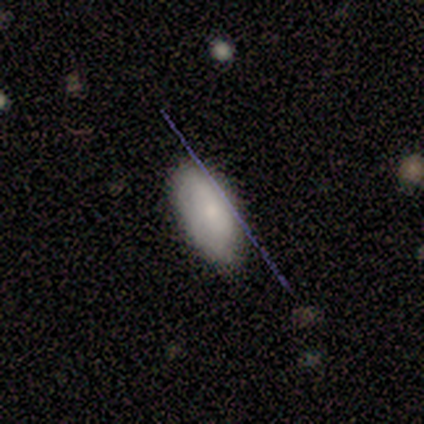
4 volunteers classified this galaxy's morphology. smooth 50% (tied), featured or disk 50% (tied), star or artifact 0%. Down the decision tree: how rounded — in between (50%, tied with cigar-shaped); merging — none (100%).